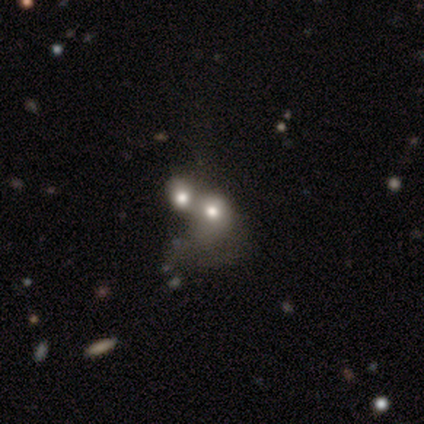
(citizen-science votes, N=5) smooth_or_featured: smooth (p=0.60) [alt: featured or disk p=0.20]
how_rounded: round (p=1.00)
merging: merger (p=1.00)